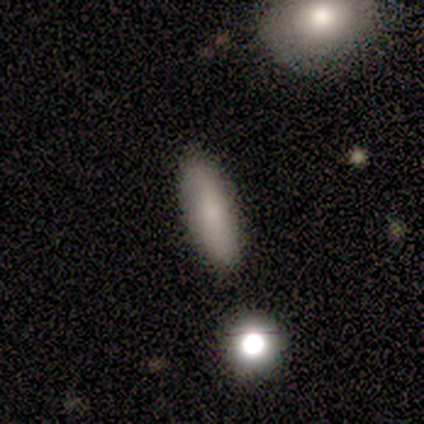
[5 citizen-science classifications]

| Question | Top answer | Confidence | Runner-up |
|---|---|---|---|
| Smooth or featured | smooth | 80% | featured or disk (20%) |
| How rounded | in between | 50% | tied: cigar-shaped (50%) |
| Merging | none | 80% | minor disturbance (20%) |